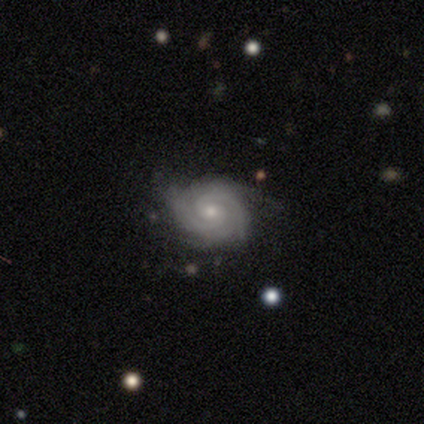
A featured or disk galaxy (90%) with no bar (69%), 2 (42%) tight (67%) spiral arms (100%) and a small central bulge (58%). Merging: none (87%).